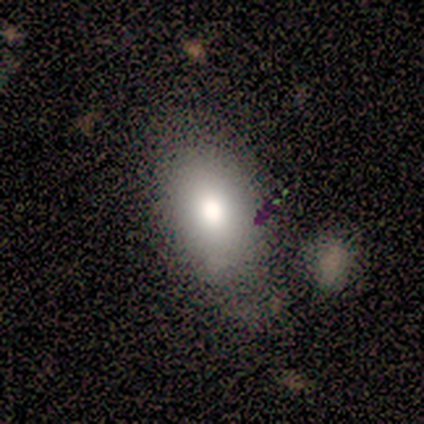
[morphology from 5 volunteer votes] Q: Smooth or featured?
A: smooth (60%); runner-up: star or artifact (40%)
Q: How rounded?
A: in between (100%)
Q: Merging?
A: none (67%); runner-up: minor disturbance (33%)